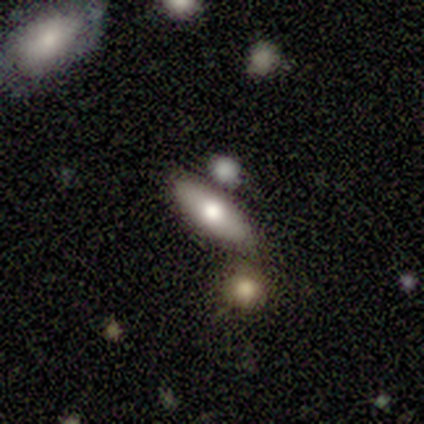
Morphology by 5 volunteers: Smooth or featured: featured or disk — 60% (smooth — 40%)
Edge-on disk: yes — 67% (no — 33%)
Edge-on bulge: none — 50% (tied with rounded — 50%)
Merging: none — 60% (minor disturbance — 20%)